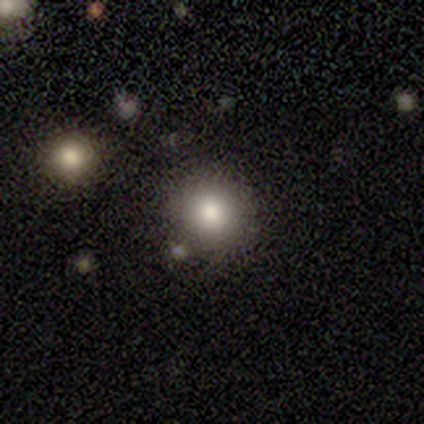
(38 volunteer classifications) This appears to be a smooth galaxy with no disk features (82%) that is round (90%). Merging: none (81%).